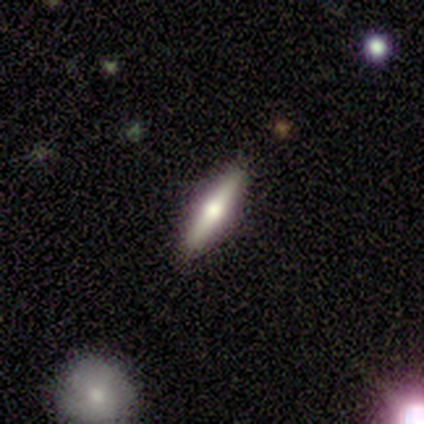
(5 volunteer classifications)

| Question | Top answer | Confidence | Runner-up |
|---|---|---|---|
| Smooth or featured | featured or disk | 80% | smooth (20%) |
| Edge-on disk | yes | 100% | — |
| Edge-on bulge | rounded | 100% | — |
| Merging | none | 80% | minor disturbance (20%) |